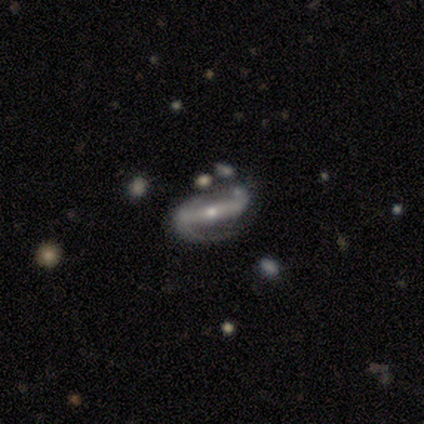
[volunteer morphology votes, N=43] This is clearly a featured or disk galaxy (91%). It is clearly not viewed edge-on (87%). Bar: likely strong (76%). Spiral arm pattern: clearly yes (91%). Spiral arm count: clearly 2 (94%). Spiral winding: marginally medium (42%). Central bulge: possibly small (59%). Merging: marginally none (43%).